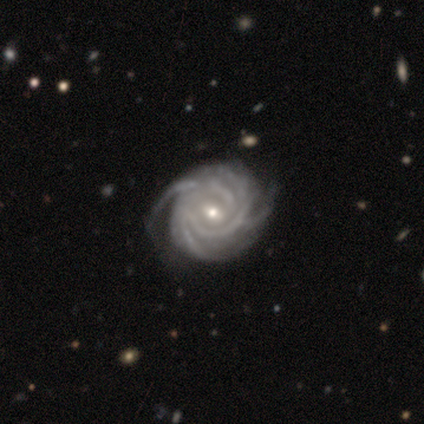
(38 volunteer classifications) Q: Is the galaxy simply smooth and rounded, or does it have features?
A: featured or disk — 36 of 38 (95%).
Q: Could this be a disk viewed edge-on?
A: no — 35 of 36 (97%).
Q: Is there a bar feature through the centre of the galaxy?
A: no — 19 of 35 (54%).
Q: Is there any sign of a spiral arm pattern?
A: yes — 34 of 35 (97%).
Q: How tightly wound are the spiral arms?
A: tight — 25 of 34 (74%).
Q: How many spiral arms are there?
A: more than 4 — 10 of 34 (29%).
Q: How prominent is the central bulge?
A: moderate — 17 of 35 (49%, tied with small).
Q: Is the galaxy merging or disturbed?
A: none — 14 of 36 (39%).